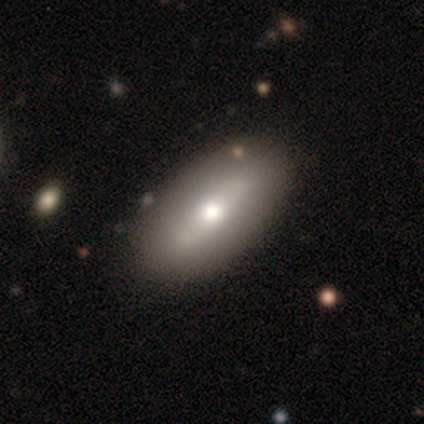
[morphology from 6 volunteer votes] Overall: smooth (67%; featured or disk 33%). How rounded: in between (100%). Merging: none (100%).